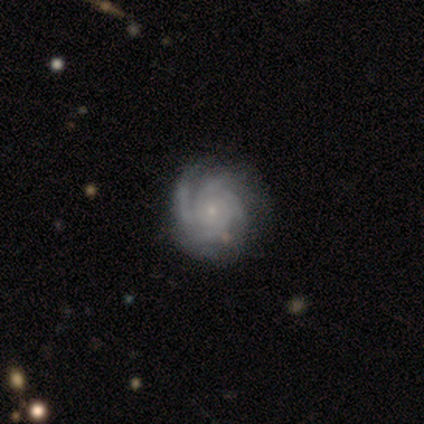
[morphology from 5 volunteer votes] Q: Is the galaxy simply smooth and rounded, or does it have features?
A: featured or disk — 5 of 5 (100%).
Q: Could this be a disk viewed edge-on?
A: no — 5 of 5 (100%).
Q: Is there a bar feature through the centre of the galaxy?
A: no — 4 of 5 (80%).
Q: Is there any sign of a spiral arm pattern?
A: yes — 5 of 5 (100%).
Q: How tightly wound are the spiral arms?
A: tight — 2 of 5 (40%, tied with medium).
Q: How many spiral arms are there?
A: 2 — 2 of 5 (40%).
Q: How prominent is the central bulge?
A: small — 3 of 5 (60%).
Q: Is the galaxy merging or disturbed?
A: none — 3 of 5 (60%).